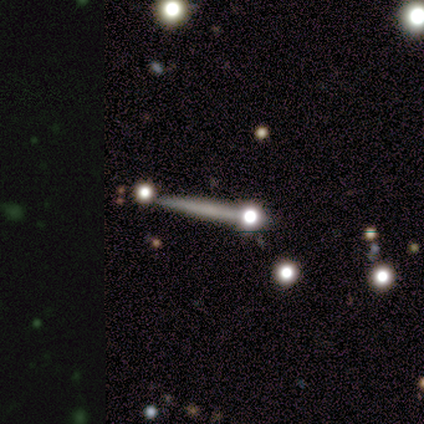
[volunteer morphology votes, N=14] Smooth or featured: featured or disk — 50% (smooth — 29%)
Edge-on disk: yes — 86% (no — 14%)
Edge-on bulge: none — 67% (rounded — 33%)
Merging: none — 55% (minor disturbance — 18%)